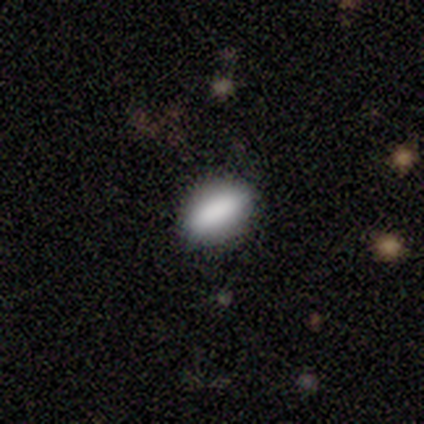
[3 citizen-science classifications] Morphology: type=smooth (67%); roundness=in between (50%, tied with cigar-shaped); merging=none (50%, tied with minor disturbance).